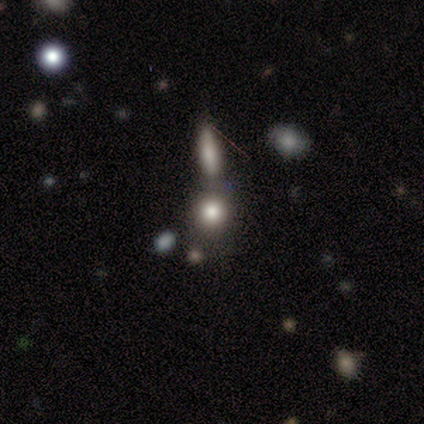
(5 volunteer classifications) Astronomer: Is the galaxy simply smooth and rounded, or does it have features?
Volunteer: smooth — 80%.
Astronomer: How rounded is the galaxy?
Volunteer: round — 50%, tied with in between at 50%.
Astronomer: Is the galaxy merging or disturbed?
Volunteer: none — 50%, tied with merger at 50%.